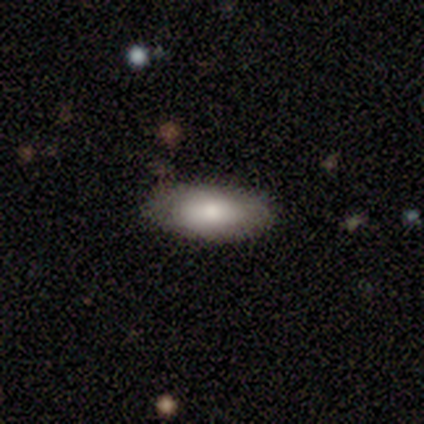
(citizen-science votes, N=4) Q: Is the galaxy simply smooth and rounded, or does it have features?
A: smooth — 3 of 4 (75%).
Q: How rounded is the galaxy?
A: in between — 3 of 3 (100%).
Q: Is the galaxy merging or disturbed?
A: none — 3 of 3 (100%).